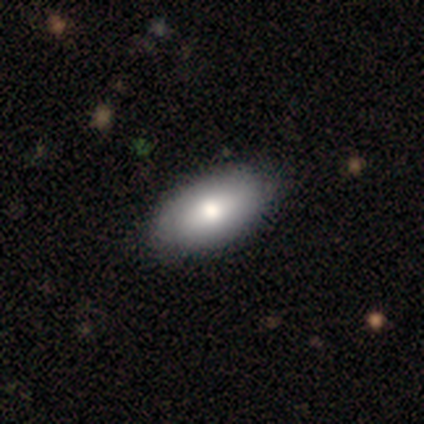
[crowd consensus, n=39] Q: Smooth or featured?
A: smooth (72%); runner-up: featured or disk (23%)
Q: How rounded?
A: in between (93%); runner-up: round (4%)
Q: Merging?
A: none (62%); runner-up: minor disturbance (8%)